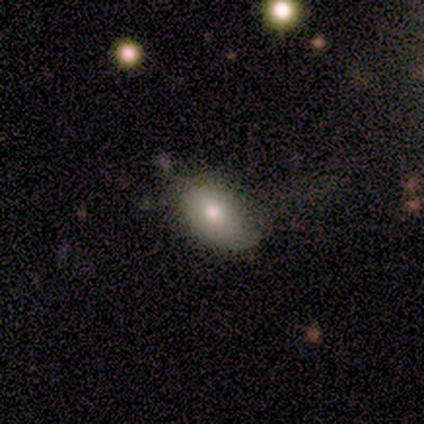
Volunteers were most divided on "merging": none: 62%, minor disturbance: 29%, major disturbance: 6%, merger: 3%. More confident: how rounded — in between (97%); smooth or featured — smooth (72%).